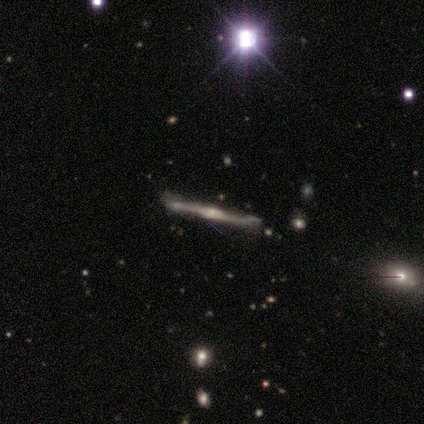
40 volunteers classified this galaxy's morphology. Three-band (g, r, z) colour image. It shows a featured or disk galaxy (85%) viewed edge-on (97%) with a rounded central bulge (79%). Merging: none (73%).